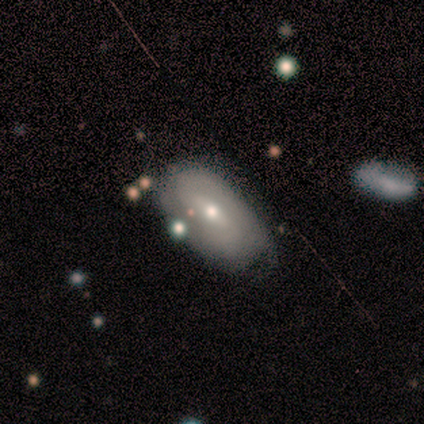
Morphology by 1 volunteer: Smooth or featured: smooth — 100%
How rounded: in between — 100%
Merging: minor disturbance — 100%